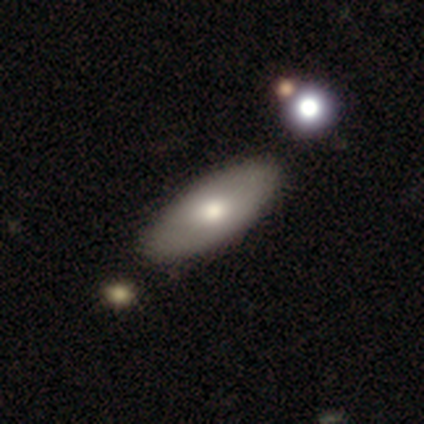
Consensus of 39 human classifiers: Morphology: type=smooth (64%); roundness=in between (84%); merging=none (53%).